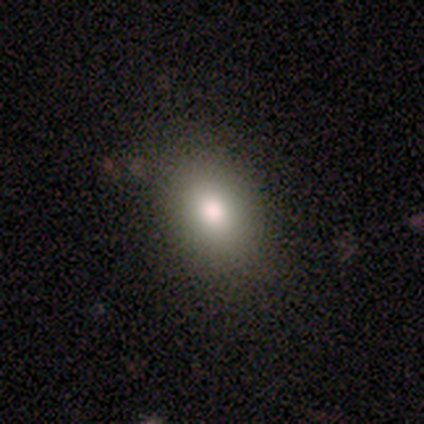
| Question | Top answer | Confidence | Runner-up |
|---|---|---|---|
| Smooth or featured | smooth | 80% | star or artifact (20%) |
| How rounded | in between | 100% | — |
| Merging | none | 100% | — |